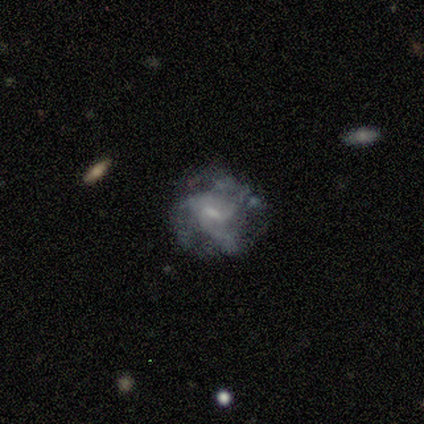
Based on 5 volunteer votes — Smooth or featured: featured or disk — 80% (star or artifact — 20%)
Edge-on disk: no — 100%
Bar: weak — 50% (strong — 25%)
Spiral arms: yes — 100%
Spiral winding: tight — 50% (medium — 25%)
Spiral arm count: 3 — 50% (4 — 25%)
Bulge size: moderate — 50% (small — 25%)
Merging: none — 100%